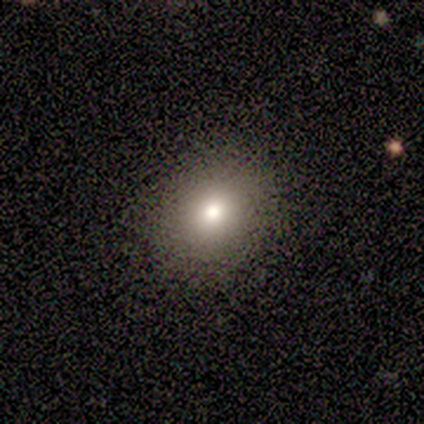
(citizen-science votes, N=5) This is clearly a smooth galaxy (80%). How rounded: clearly round (100%). Merging: clearly none (100%).